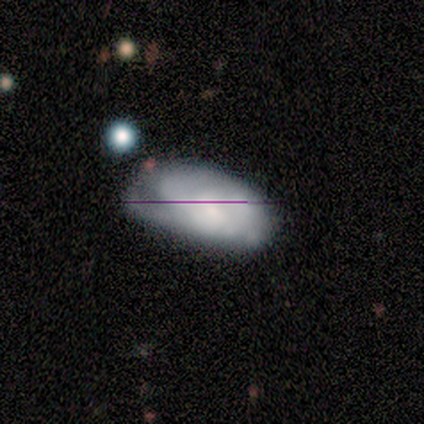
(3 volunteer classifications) A smooth galaxy with no disk features (67%) that is in between round and cigar-shaped (100%).

Vote fractions:
- Smooth or featured? smooth: 67% / featured or disk: 33% / star or artifact: 0%
- How rounded? in between: 100% / round: 0% / cigar-shaped: 0%
- Merging? none: 33% (tied) / minor disturbance: 33% (tied) / major disturbance: 33% (tied) / merger: 0%